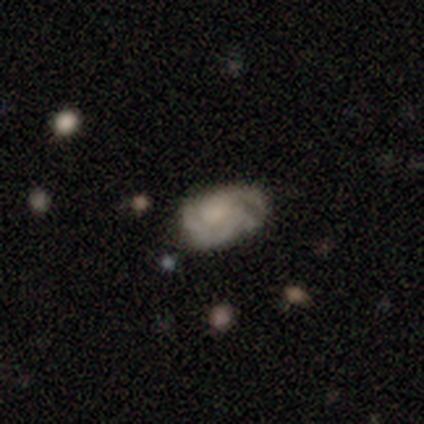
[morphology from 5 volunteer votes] featured or disk 80%, smooth 20%, star or artifact 0%. Down the decision tree: edge-on disk — no (100%); bar — no (100%); spiral arms — yes (100%); spiral arm count — can't tell (75%); spiral winding — tight (75%); bulge size — moderate (75%); merging — none (60%).